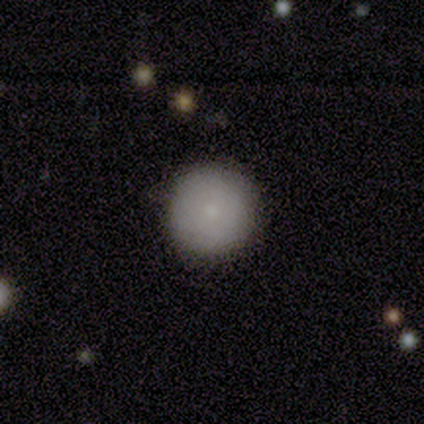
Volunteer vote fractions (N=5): smooth_or_featured: smooth (p=1.00)
how_rounded: round (p=1.00)
merging: none (p=1.00)